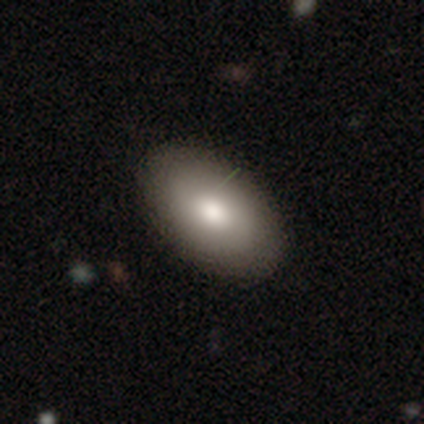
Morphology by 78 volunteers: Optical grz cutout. It shows a smooth galaxy with no disk features (86%) that is in between round and cigar-shaped (94%). Merging: none (57%).